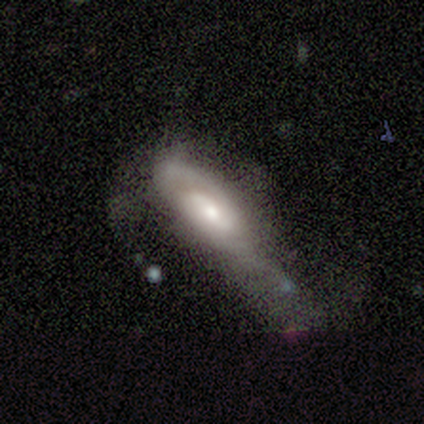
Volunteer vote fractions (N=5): Smooth or featured? 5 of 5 (100%) said featured or disk. Edge-on disk? 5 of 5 (100%) said no. Bar? 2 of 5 (40%, tied with no) said weak. Spiral arms? 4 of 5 (80%) said yes. Spiral winding? 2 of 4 (50%) said loose. Spiral arm count? 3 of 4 (75%) said 2. Bulge size? 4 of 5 (80%) said moderate. Merging? 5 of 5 (100%) said major disturbance.